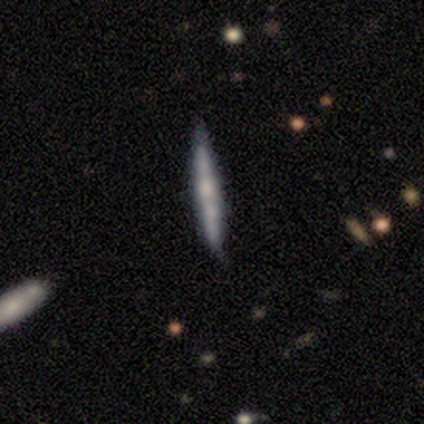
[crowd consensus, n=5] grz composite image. It shows a featured or disk galaxy (60%) viewed edge-on (100%) with a boxy central bulge (33%, tied with none and rounded). Merging: none (80%).